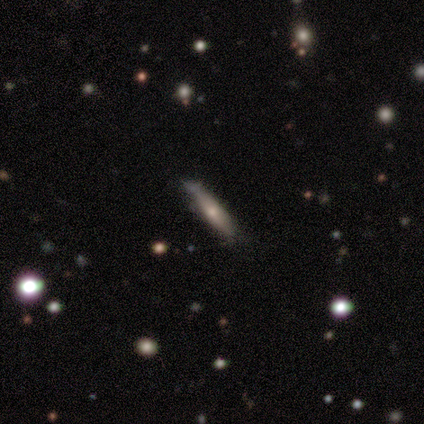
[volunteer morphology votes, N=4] type=smooth (50%, tied with featured or disk); roundness=in between (50%, tied with cigar-shaped); merging=none (50%, tied with minor disturbance).